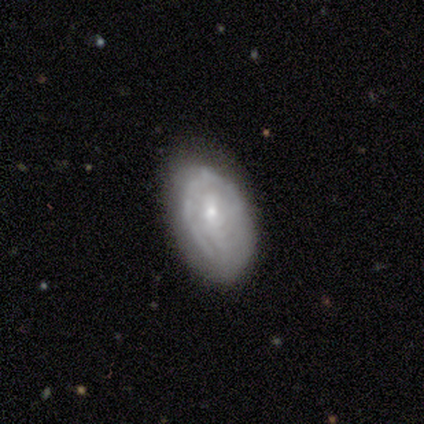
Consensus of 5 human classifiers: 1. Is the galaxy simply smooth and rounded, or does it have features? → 60% smooth, 20% featured or disk, 20% star or artifact.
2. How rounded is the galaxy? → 100% in between, 0% round, 0% cigar-shaped.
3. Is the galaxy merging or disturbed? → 50% none, 25% minor disturbance, 25% major disturbance, 0% merger.